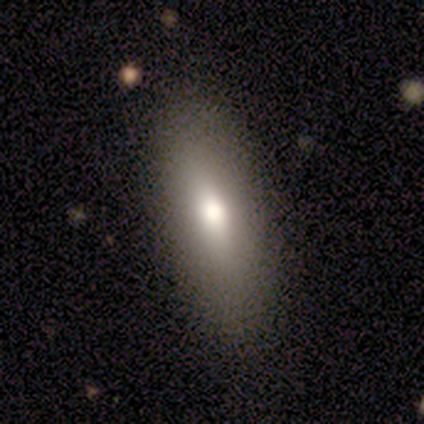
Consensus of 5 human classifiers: A smooth galaxy with no disk features (60%) that is in between round and cigar-shaped (100%).

Vote fractions:
- Smooth or featured? smooth: 60% / featured or disk: 40% / star or artifact: 0%
- How rounded? in between: 100% / round: 0% / cigar-shaped: 0%
- Merging? none: 100% / minor disturbance: 0% / major disturbance: 0% / merger: 0%